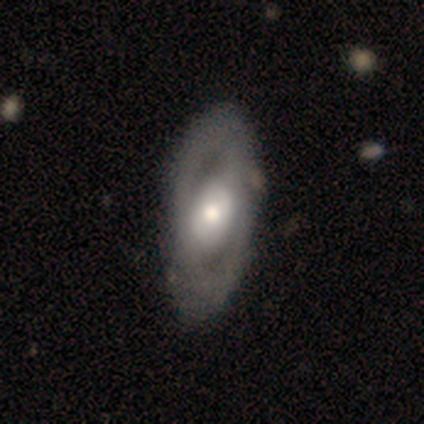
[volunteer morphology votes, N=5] Smooth or featured? featured or disk (60%)
Edge-on disk? no (100%)
Bar? weak (67%)
Spiral arms? yes (67%)
Spiral winding? tight (50%, tied with medium)
Spiral arm count? 2 (100%)
Bulge size? large (33%, tied with moderate and small)
Merging? none (80%)